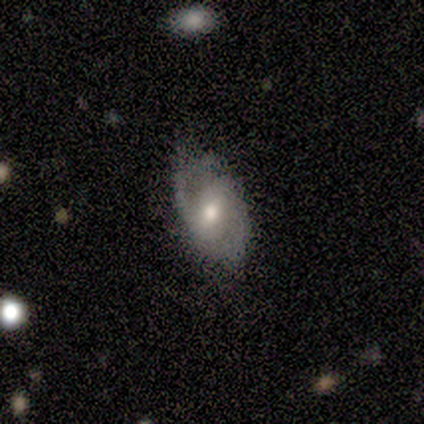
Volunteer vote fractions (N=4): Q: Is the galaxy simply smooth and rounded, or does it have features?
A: featured or disk — 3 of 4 (75%).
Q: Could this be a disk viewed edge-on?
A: no — 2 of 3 (67%).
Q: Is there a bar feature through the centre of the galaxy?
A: weak — 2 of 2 (100%).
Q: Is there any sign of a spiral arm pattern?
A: yes — 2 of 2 (100%).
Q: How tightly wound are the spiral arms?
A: medium — 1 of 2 (50%, tied with loose).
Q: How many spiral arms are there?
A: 1 — 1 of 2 (50%, tied with 2).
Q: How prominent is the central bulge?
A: moderate — 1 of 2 (50%, tied with small).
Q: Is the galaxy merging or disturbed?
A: none — 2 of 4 (50%, tied with major disturbance).